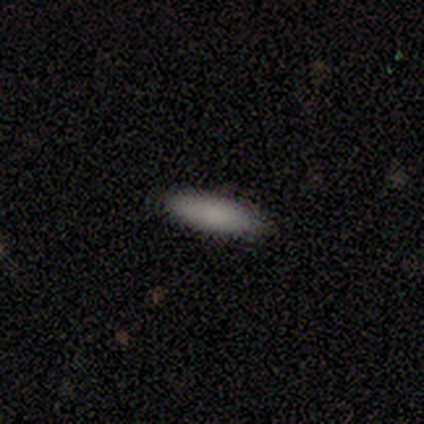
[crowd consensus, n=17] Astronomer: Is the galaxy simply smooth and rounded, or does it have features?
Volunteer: smooth — 100%.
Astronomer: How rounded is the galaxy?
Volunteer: in between — 71%.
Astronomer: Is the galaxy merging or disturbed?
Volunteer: none — 88%.